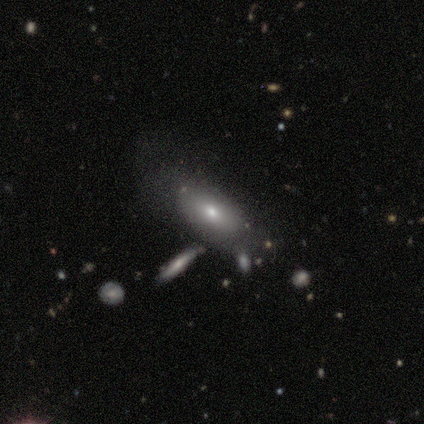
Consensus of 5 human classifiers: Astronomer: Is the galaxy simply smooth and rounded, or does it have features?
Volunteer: smooth — 60% (runner-up: featured or disk, 40%).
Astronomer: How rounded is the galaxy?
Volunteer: in between — 67%.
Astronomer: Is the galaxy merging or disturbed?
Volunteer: none — 60%.